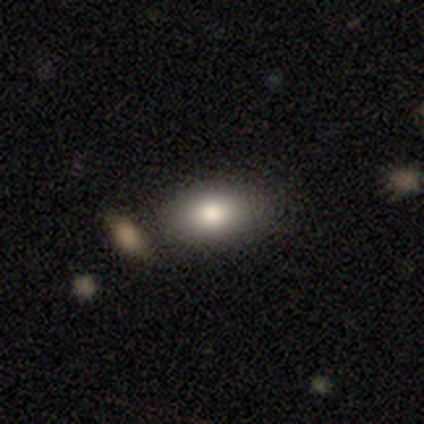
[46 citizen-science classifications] Smooth or featured: smooth — 85% (featured or disk — 9%)
How rounded: in between — 87% (round — 8%)
Merging: none — 77% (minor disturbance — 16%)